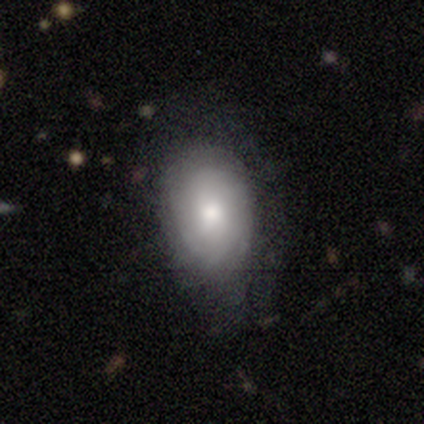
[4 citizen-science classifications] Overall: smooth (50%, tied with featured or disk). How rounded: round (50%, tied with cigar-shaped). Merging: none (50%, tied with minor disturbance).